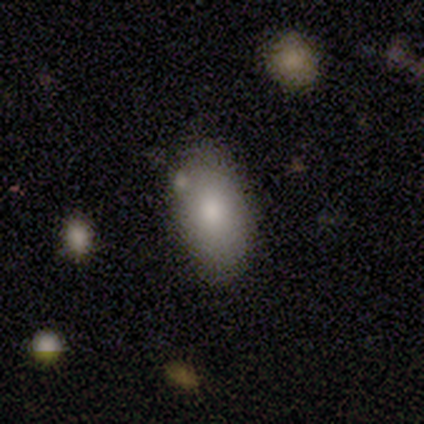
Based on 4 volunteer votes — Smooth or featured?
  - smooth: 100% *
  - featured or disk: 0%
  - star or artifact: 0%
How rounded?
  - in between: 75% *
  - round: 25%
  - cigar-shaped: 0%
Merging?
  - none: 50% * (tied)
  - minor disturbance: 50% * (tied)
  - major disturbance: 0%
  - merger: 0%